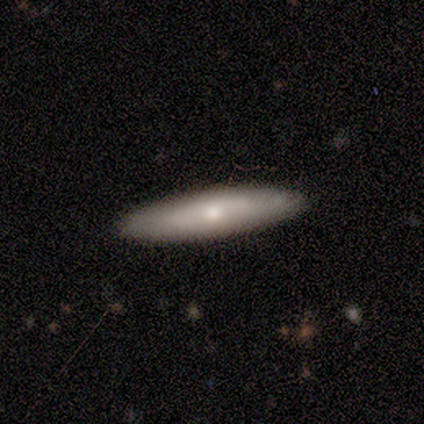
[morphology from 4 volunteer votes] Q: Smooth or featured?
A: smooth (50%); tied with: featured or disk (50%)
Q: How rounded?
A: in between (50%); tied with: cigar-shaped (50%)
Q: Merging?
A: none (100%)